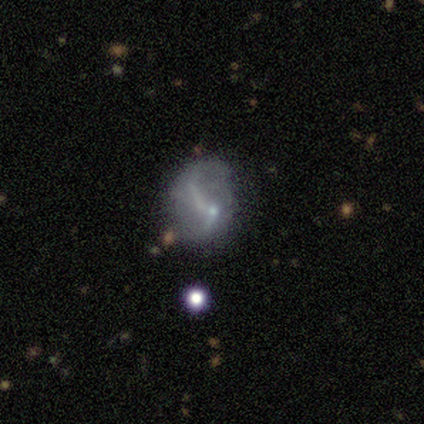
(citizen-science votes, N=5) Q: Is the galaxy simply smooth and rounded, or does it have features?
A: featured or disk — 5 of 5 (100%).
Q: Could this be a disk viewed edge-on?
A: no — 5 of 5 (100%).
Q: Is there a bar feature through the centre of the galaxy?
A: strong — 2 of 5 (40%, tied with no).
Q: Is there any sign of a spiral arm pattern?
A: yes — 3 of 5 (60%).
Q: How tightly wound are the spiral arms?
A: loose — 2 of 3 (67%).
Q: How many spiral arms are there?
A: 1 — 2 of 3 (67%).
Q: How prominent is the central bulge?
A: none — 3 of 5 (60%).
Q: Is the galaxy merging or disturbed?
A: minor disturbance — 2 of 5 (40%, tied with major disturbance).